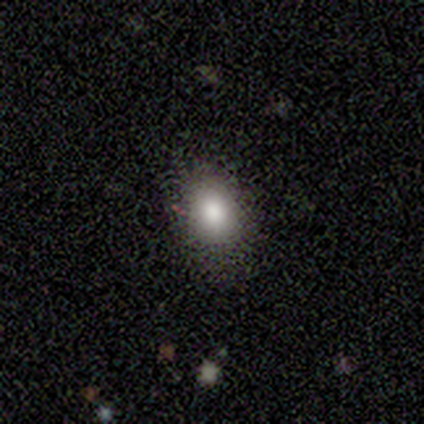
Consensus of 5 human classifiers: Smooth or featured? smooth (100%)
How rounded? in between (100%)
Merging? none (80%)